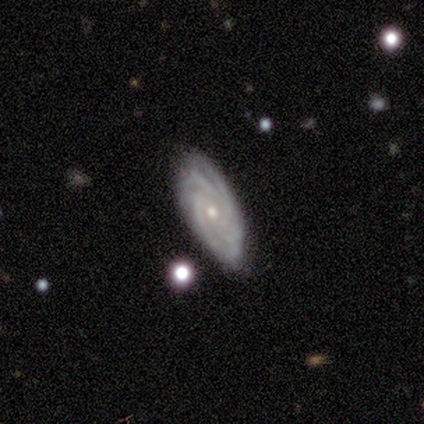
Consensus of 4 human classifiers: smooth-or-featured: featured or disk: 100% | smooth: 0% | star or artifact: 0%
  disk-edge-on: no: 100% | yes: 0%
    bar: no: 100% | strong: 0% | weak: 0%
    has-spiral-arms: yes: 100% | no: 0%
      spiral-winding: tight: 100% | medium: 0% | loose: 0%
      spiral-arm-count: 4: 50% | 2: 25% | can't tell: 25% | 1: 0% | 3: 0% | more than 4: 0%
    bulge-size: small: 100% | dominant: 0% | large: 0% | moderate: 0% | none: 0%
  merging: none: 50% (tied) | minor disturbance: 50% (tied) | major disturbance: 0% | merger: 0%